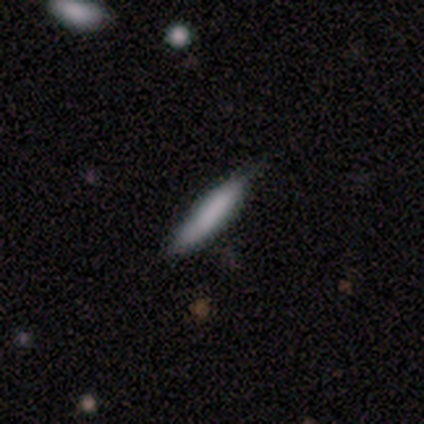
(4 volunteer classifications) A smooth galaxy with no disk features (50%) that is cigar-shaped (100%).

Vote fractions:
- Smooth or featured? smooth: 50% / featured or disk: 25% / star or artifact: 25%
- How rounded? cigar-shaped: 100% / round: 0% / in between: 0%
- Merging? minor disturbance: 67% / none: 33% / major disturbance: 0% / merger: 0%